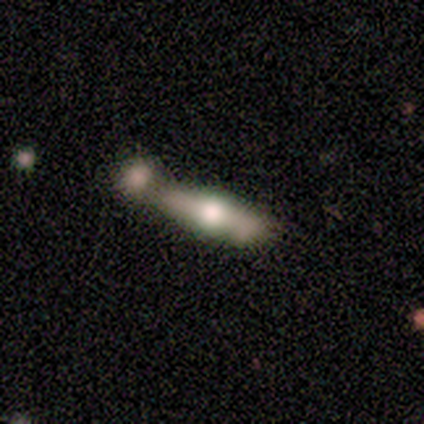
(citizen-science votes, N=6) Q: Smooth or featured?
A: featured or disk (50%); runner-up: smooth (33%)
Q: Edge-on disk?
A: yes (100%)
Q: Edge-on bulge?
A: rounded (100%)
Q: Merging?
A: none (60%); runner-up: merger (40%)